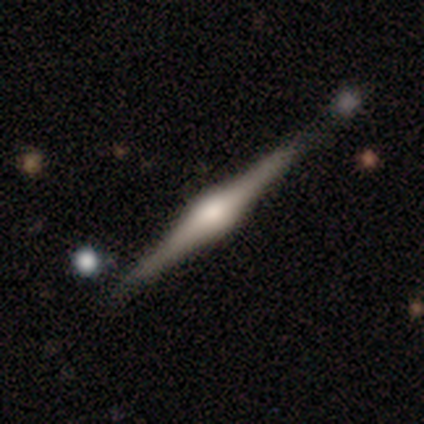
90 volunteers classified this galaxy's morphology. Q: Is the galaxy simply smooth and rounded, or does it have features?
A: featured or disk — 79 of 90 (88%).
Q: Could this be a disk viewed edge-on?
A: yes — 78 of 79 (99%).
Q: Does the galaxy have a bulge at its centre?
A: rounded — 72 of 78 (92%).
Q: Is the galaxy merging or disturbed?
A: none — 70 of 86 (81%).